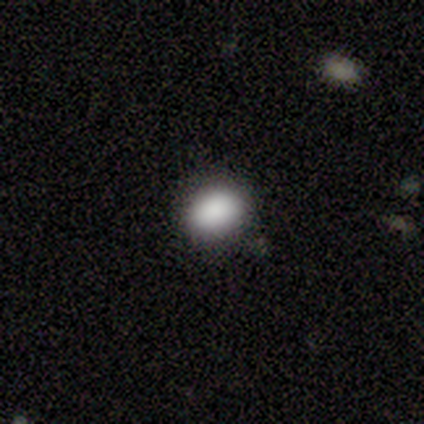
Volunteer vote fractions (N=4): Smooth or featured?
  - smooth: 100% *
  - featured or disk: 0%
  - star or artifact: 0%
How rounded?
  - in between: 75% *
  - round: 25%
  - cigar-shaped: 0%
Merging?
  - none: 75% *
  - minor disturbance: 25%
  - major disturbance: 0%
  - merger: 0%